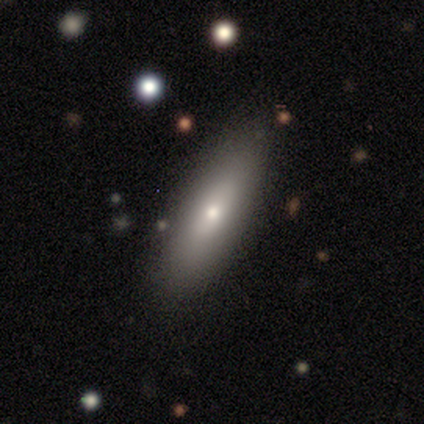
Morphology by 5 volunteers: Overall: smooth (80%). How rounded: in between (50%, tied with cigar-shaped). Merging: none (60%; minor disturbance 20%).